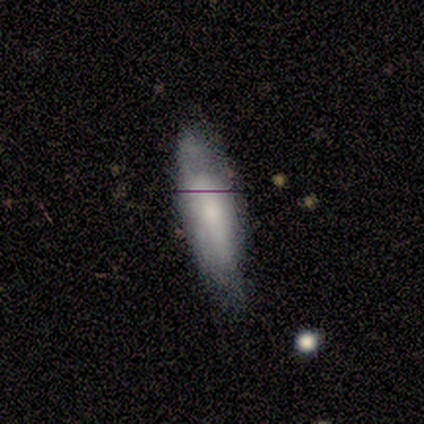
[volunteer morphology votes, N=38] Smooth or featured: smooth — 61% (featured or disk — 26%)
How rounded: in between — 52% (cigar-shaped — 48%)
Merging: none — 52% (minor disturbance — 15%)